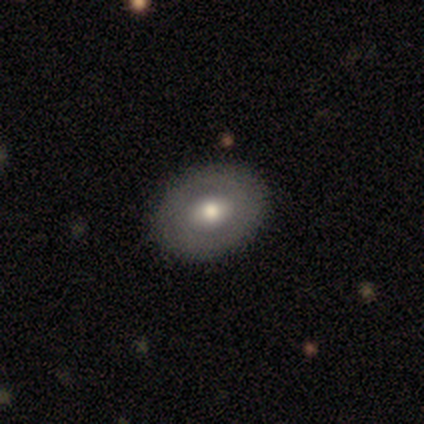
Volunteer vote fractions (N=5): Smooth or featured? 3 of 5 (60%) said smooth. How rounded? 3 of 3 (100%) said in between. Merging? 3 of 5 (60%) said none.